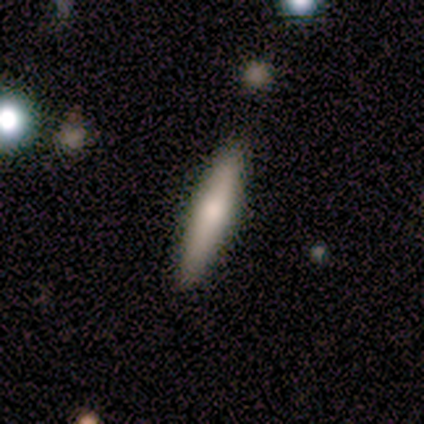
Morphology: type=smooth (80%); roundness=cigar-shaped (100%); merging=none (100%).